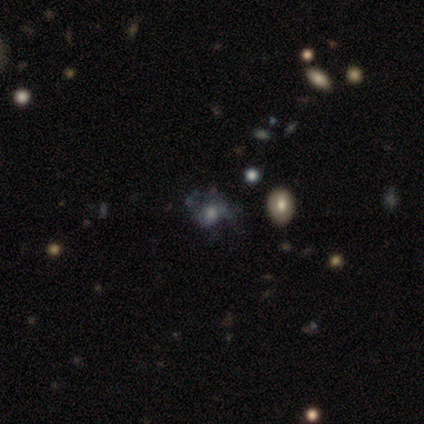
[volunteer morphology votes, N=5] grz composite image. It shows a featured or disk galaxy (40%, tied with star or artifact) with no bar (100%), no spiral arms (100%) and a moderate central bulge (50%, tied with small). Merging: none (67%).